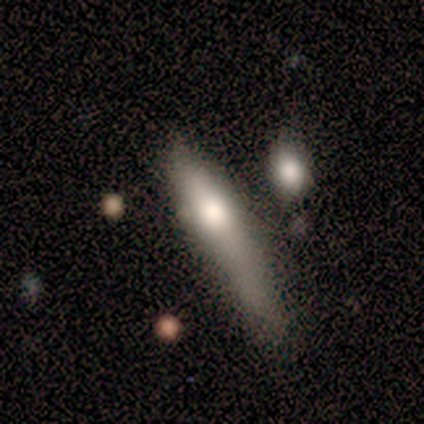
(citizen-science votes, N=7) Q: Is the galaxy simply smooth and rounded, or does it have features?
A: featured or disk — 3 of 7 (43%).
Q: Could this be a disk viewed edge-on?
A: yes — 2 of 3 (67%).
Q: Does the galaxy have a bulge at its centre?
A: rounded — 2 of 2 (100%).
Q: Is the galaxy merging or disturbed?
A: major disturbance — 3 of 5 (60%).